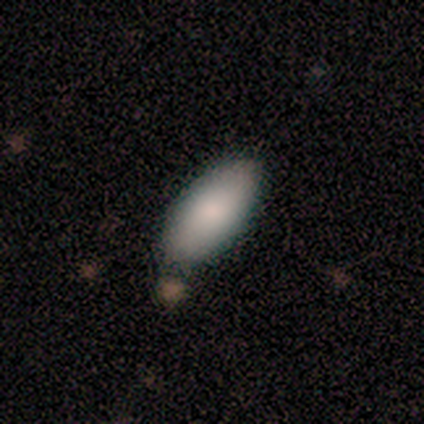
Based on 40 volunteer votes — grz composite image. It shows a smooth galaxy with no disk features (82%) that is in between round and cigar-shaped (91%). Merging: none (81%).